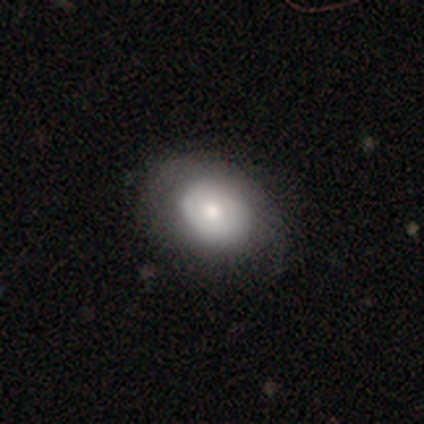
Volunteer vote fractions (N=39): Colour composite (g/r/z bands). It shows a smooth galaxy with no disk features (64%) that is in between round and cigar-shaped (52%). Merging: none (69%).